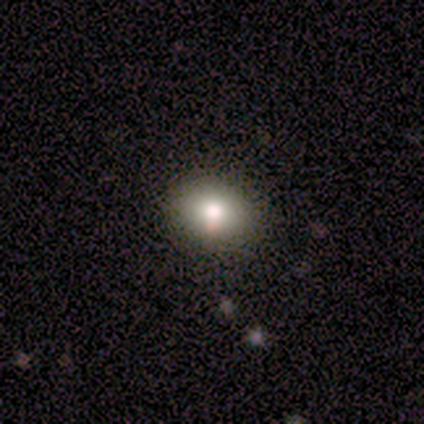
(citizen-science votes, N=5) Morphology: type=smooth (80%); roundness=round (75%); merging=none (100%).